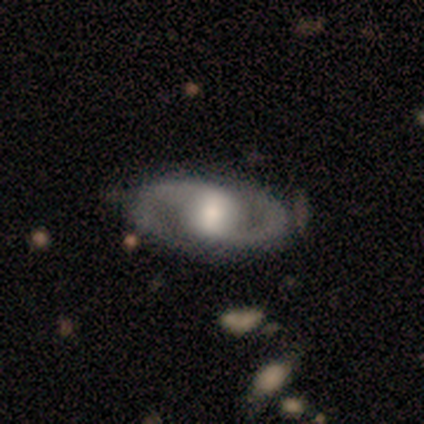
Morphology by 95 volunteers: Smooth or featured? featured or disk (92%)
Edge-on disk? no (95%)
Bar? no (39%)
Spiral arms? yes (92%)
Spiral winding? medium (50%)
Spiral arm count? 2 (93%)
Bulge size? moderate (46%)
Merging? none (74%)